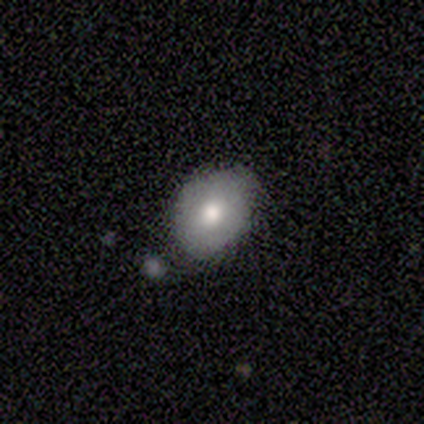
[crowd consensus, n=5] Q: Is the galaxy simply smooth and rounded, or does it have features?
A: smooth — 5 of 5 (100%).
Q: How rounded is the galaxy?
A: in between — 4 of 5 (80%).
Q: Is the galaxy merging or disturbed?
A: none — 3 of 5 (60%).